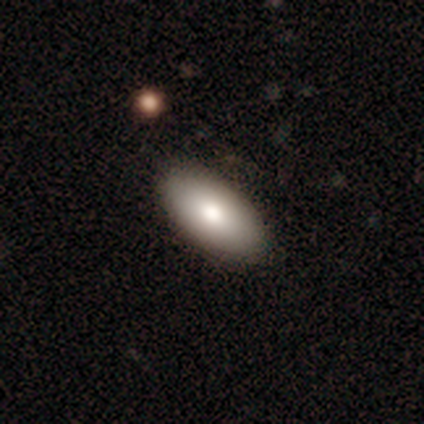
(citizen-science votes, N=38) This appears to be a smooth galaxy with no disk features (79%) that is in between round and cigar-shaped (93%). Merging: none (92%).